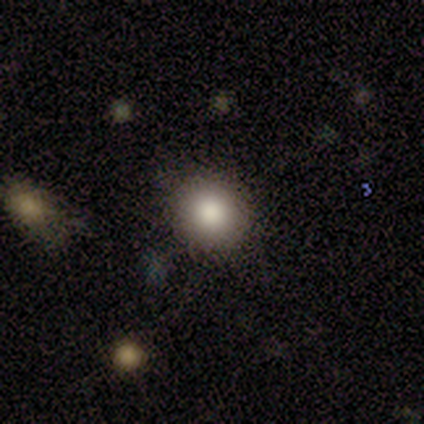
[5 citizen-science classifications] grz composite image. It shows a smooth galaxy with no disk features (100%) that is round (80%). Merging: none (100%).